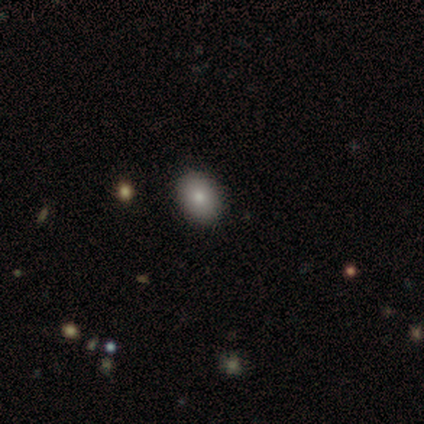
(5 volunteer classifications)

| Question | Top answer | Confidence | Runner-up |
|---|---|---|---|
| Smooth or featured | smooth | 60% | featured or disk (20%) |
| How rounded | in between | 67% | cigar-shaped (33%) |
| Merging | none | 50% | minor disturbance (25%) |